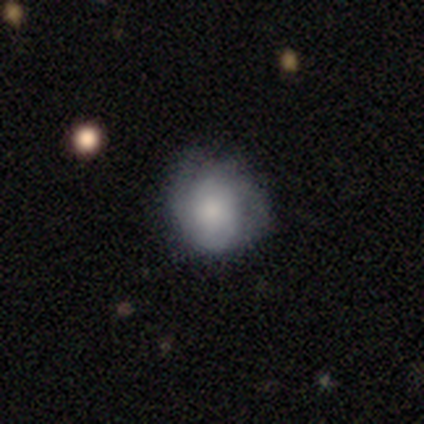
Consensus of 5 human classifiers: Q: Smooth or featured?
A: smooth (60%); runner-up: featured or disk (20%)
Q: How rounded?
A: in between (67%); runner-up: round (33%)
Q: Merging?
A: minor disturbance (50%); runner-up: none (25%)